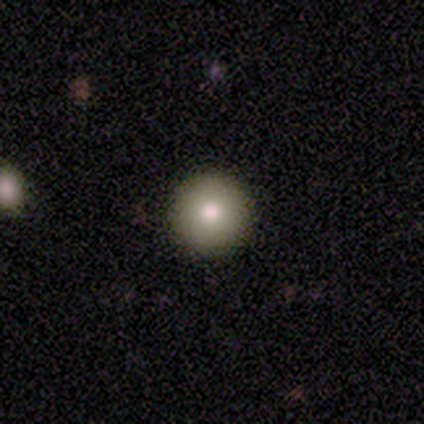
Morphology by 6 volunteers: A smooth galaxy with no disk features (83%) that is round (100%). Merging: none (100%).